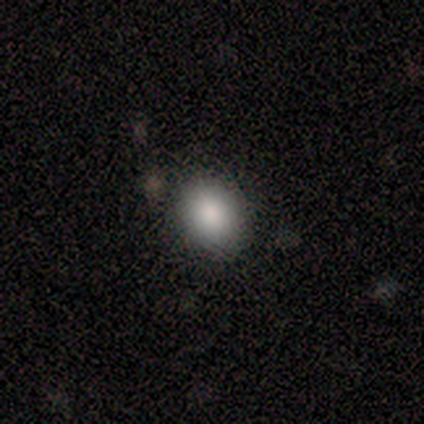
This is likely a smooth galaxy (75%). How rounded: clearly in between (100%). Merging: likely none (67%).